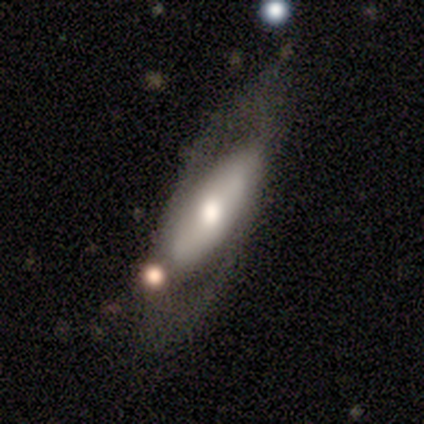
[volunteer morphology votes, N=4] type=featured or disk (100%); edge-on=no (100%); bar=no (75%); spiral arms=no (75%); bulge=large (50%, tied with moderate); merging=none (50%, tied with major disturbance).